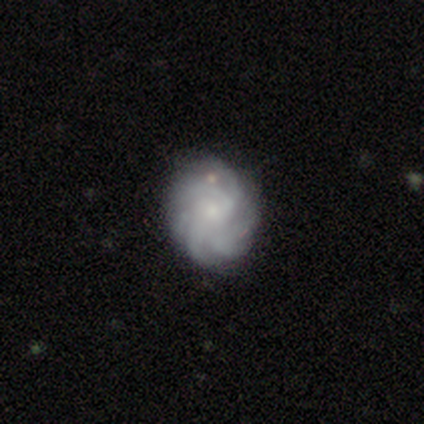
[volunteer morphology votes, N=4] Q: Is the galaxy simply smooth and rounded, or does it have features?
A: featured or disk — 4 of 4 (100%).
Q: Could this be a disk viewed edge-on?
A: no — 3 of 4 (75%).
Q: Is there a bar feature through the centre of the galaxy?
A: weak — 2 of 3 (67%).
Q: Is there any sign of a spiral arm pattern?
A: yes — 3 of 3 (100%).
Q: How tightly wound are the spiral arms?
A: loose — 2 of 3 (67%).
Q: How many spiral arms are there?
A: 3 — 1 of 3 (33%, tied with more than 4 and can't tell).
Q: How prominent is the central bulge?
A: moderate — 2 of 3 (67%).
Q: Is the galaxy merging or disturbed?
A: none — 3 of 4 (75%).